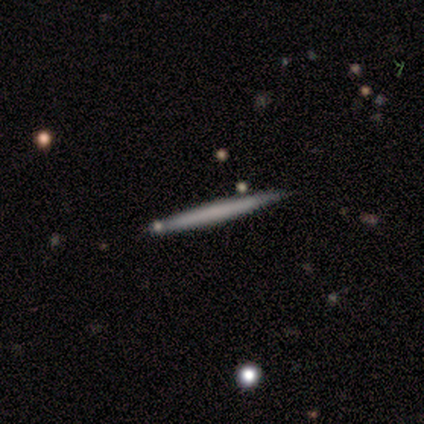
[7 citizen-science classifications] This is possibly a smooth galaxy (57%). How rounded: clearly cigar-shaped (100%). Merging: clearly none (86%).